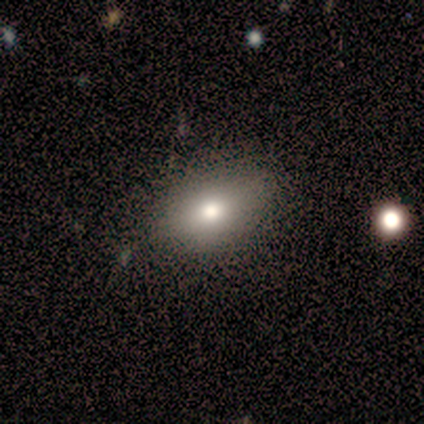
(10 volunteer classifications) This is clearly a smooth galaxy (80%). How rounded: clearly in between (100%). Merging: likely none (78%).